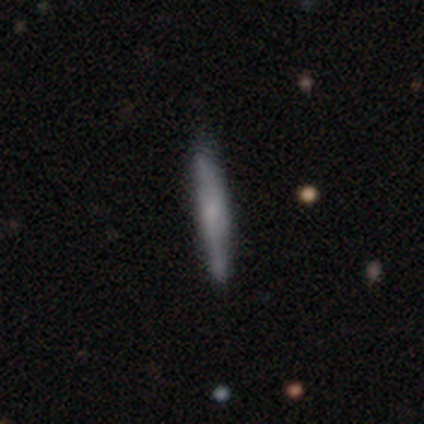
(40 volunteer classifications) Q: Smooth or featured?
A: smooth (55%); runner-up: featured or disk (42%)
Q: How rounded?
A: cigar-shaped (100%)
Q: Merging?
A: none (74%); runner-up: minor disturbance (26%)